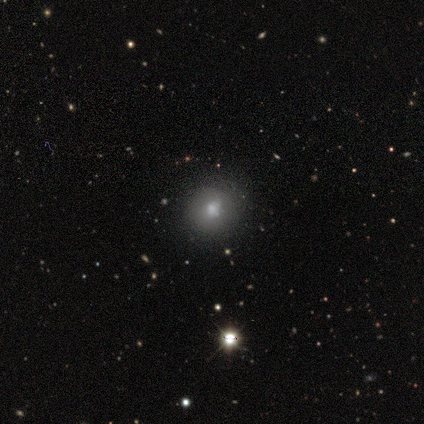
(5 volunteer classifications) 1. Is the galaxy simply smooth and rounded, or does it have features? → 60% smooth, 40% star or artifact, 0% featured or disk.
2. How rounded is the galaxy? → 100% round, 0% in between, 0% cigar-shaped.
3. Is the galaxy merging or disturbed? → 100% none, 0% minor disturbance, 0% major disturbance, 0% merger.